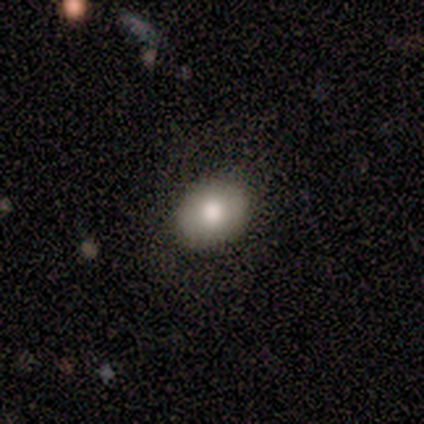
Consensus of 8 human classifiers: Overall: smooth (100%). How rounded: in between (62%; round 38%). Merging: none (88%).